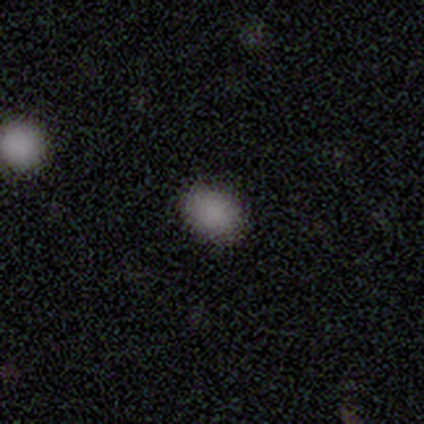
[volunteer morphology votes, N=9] Smooth or featured: smooth — 100%
How rounded: in between — 56% (round — 44%)
Merging: none — 100%